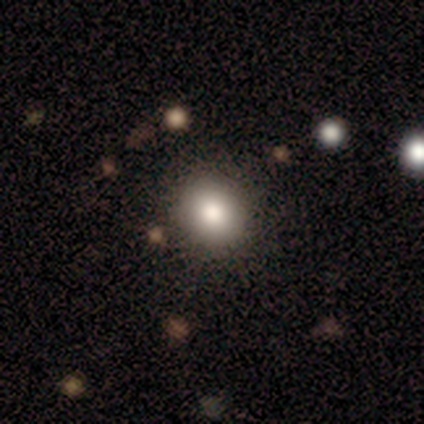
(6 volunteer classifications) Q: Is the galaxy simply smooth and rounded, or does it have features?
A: smooth — 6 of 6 (100%).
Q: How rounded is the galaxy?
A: round — 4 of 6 (67%).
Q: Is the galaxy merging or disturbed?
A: none — 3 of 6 (50%).